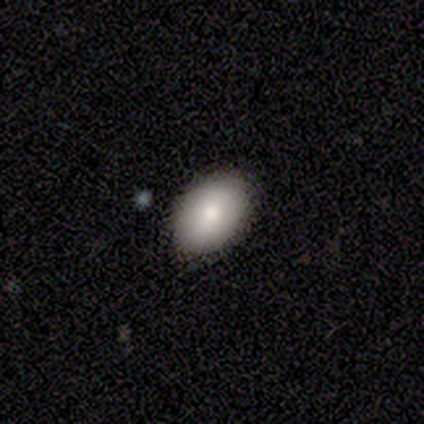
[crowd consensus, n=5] Q: Smooth or featured?
A: smooth (100%)
Q: How rounded?
A: in between (80%); runner-up: round (20%)
Q: Merging?
A: none (100%)